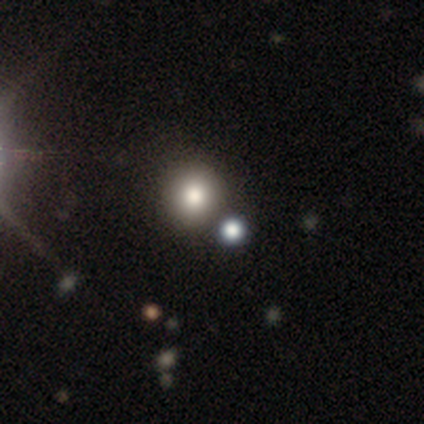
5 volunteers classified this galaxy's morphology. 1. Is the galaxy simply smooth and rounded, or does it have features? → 40% smooth (tied), 40% featured or disk (tied), 20% star or artifact.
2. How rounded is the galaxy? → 100% round, 0% in between, 0% cigar-shaped.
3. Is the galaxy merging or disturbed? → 100% none, 0% minor disturbance, 0% major disturbance, 0% merger.